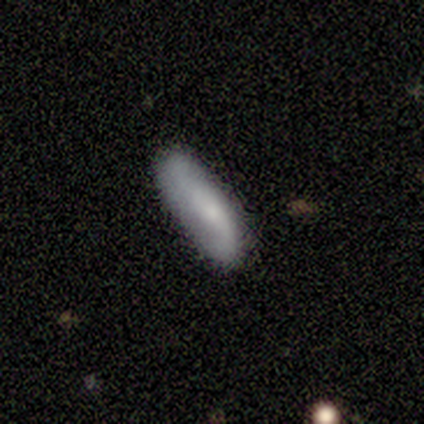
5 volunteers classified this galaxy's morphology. Smooth or featured? 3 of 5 (60%) said featured or disk. Edge-on disk? 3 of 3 (100%) said no. Bar? 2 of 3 (67%) said no. Spiral arms? 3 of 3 (100%) said yes. Spiral winding? 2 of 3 (67%) said loose. Spiral arm count? 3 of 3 (100%) said 2. Bulge size? 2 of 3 (67%) said small. Merging? 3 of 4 (75%) said none.